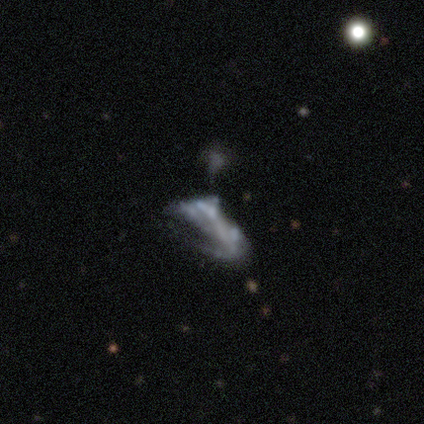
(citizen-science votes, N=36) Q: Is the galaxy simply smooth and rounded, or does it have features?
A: featured or disk — 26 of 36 (72%).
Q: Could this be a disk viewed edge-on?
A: no — 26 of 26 (100%).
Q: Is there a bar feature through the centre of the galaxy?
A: no — 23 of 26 (88%).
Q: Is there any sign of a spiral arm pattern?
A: no — 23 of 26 (88%).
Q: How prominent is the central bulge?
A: none — 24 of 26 (92%).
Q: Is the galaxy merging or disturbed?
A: major disturbance — 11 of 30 (37%).